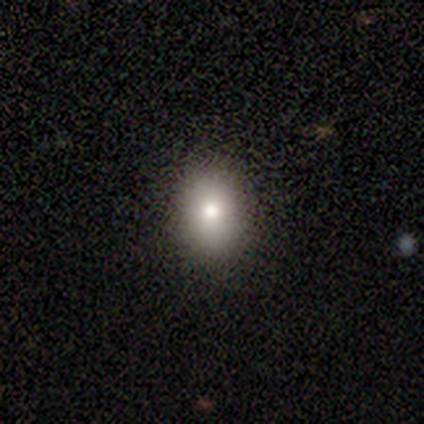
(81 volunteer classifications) A smooth galaxy with no disk features (83%) that is in between round and cigar-shaped (84%).

Vote fractions:
- Smooth or featured? smooth: 83% / star or artifact: 11% / featured or disk: 6%
- How rounded? in between: 84% / round: 16% / cigar-shaped: 0%
- Merging? none: 47% / minor disturbance: 6% / merger: 1% / major disturbance: 0%